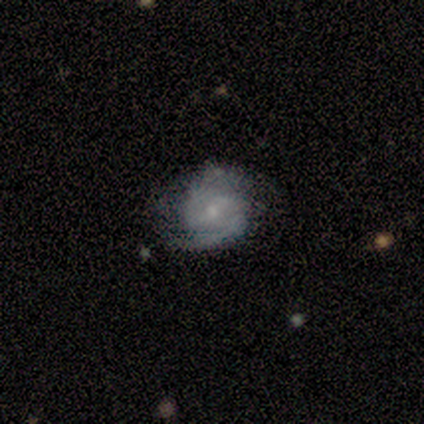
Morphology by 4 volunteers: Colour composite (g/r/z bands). It shows a featured or disk galaxy (100%) with a weak bar (50%), 2 (100%) tight (67%) spiral arms (75%) and a moderate central bulge (75%). Merging: none (100%).